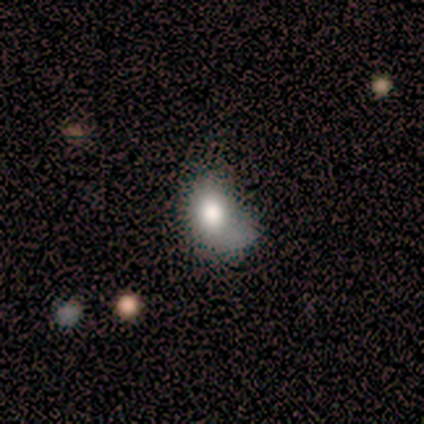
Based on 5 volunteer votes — A smooth galaxy with no disk features (80%) that is in between round and cigar-shaped (75%).

Vote fractions:
- Smooth or featured? smooth: 80% / featured or disk: 20% / star or artifact: 0%
- How rounded? in between: 75% / round: 25% / cigar-shaped: 0%
- Merging? minor disturbance: 60% / major disturbance: 40% / none: 0% / merger: 0%